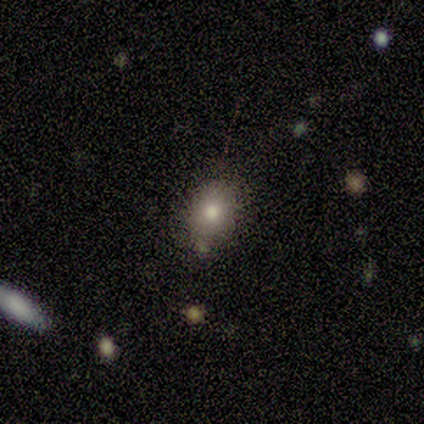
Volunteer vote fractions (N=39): Smooth or featured? 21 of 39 (54%) said smooth. How rounded? 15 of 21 (71%) said in between. Merging? 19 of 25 (76%) said none.